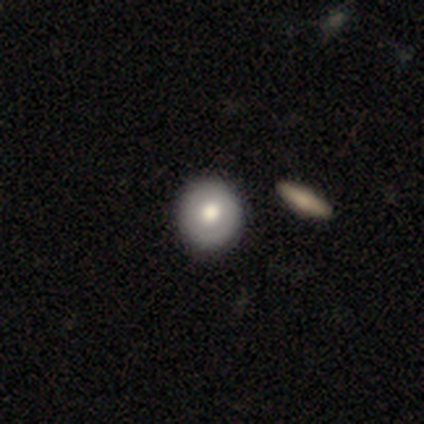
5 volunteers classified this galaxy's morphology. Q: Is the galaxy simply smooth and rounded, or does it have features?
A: smooth — 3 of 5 (60%).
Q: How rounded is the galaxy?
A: round — 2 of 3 (67%).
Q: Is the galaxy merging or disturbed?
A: none — 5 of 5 (100%).